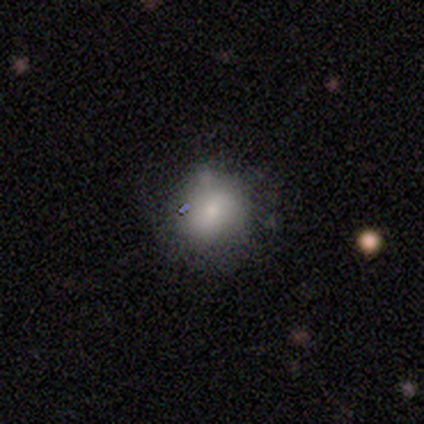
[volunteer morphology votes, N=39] type=smooth (59%); roundness=round (74%); merging=none (49%).